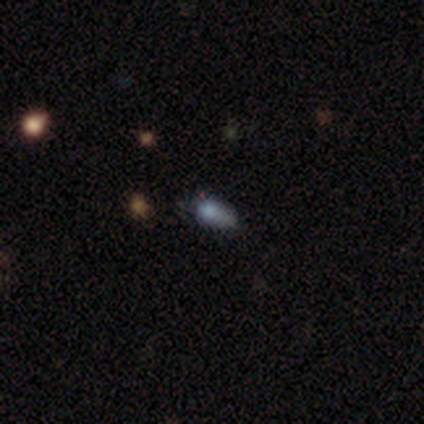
Morphology: type=featured or disk (50%); edge-on=no (100%); bar=no (100%); spiral arms=no (100%); bulge=dominant (100%); merging=none (33%, tied with minor disturbance and major disturbance).